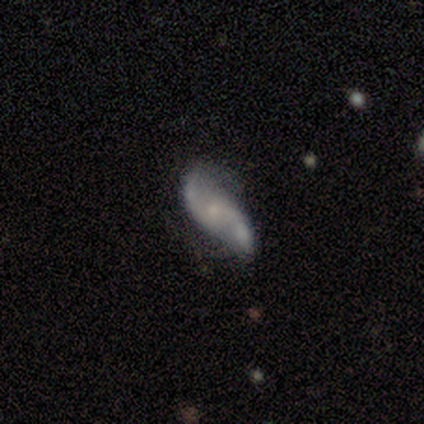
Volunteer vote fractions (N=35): Smooth or featured? 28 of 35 (80%) said featured or disk. Edge-on disk? 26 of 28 (93%) said no. Bar? 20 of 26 (77%) said no. Spiral arms? 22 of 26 (85%) said yes. Spiral winding? 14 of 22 (64%) said loose. Spiral arm count? 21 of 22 (95%) said 2. Bulge size? 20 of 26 (77%) said small. Merging? 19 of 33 (58%) said none.